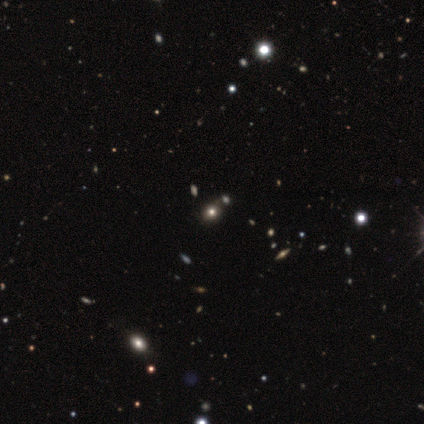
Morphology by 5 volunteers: Overall: smooth (60%; featured or disk 20%). How rounded: round (67%; in between 33%). Merging: none (75%).